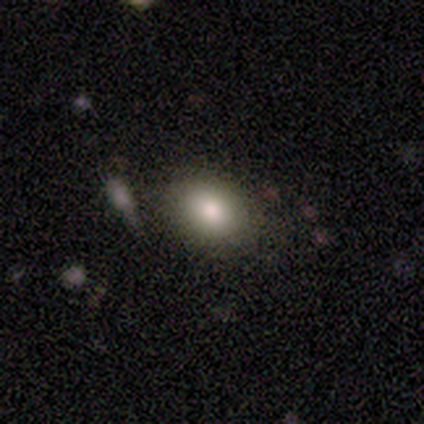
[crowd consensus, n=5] This is clearly a smooth galaxy (80%). How rounded: clearly in between (100%). Merging: clearly none (100%).